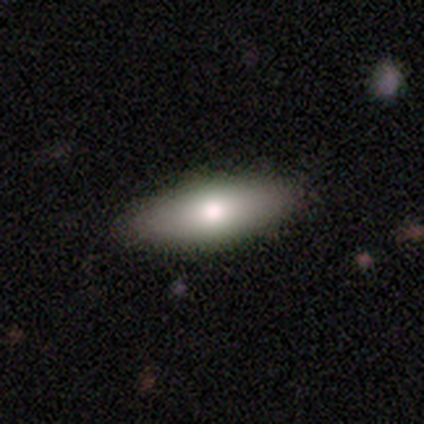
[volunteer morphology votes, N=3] Volunteers were most divided on "smooth or featured": smooth: 67%, featured or disk: 33%, star or artifact: 0%. More confident: how rounded — cigar-shaped (100%); merging — none (100%).